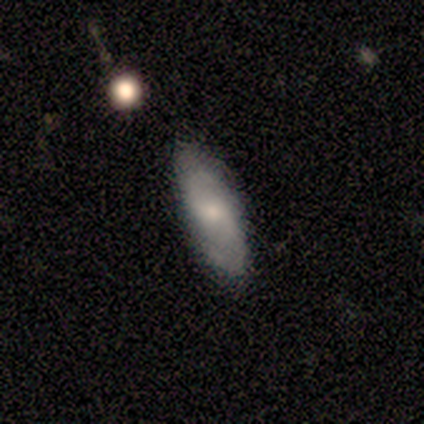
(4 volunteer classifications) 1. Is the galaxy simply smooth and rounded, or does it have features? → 50% smooth (tied), 50% featured or disk (tied), 0% star or artifact.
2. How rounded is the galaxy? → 100% in between, 0% round, 0% cigar-shaped.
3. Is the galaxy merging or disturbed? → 75% none, 25% major disturbance, 0% minor disturbance, 0% merger.